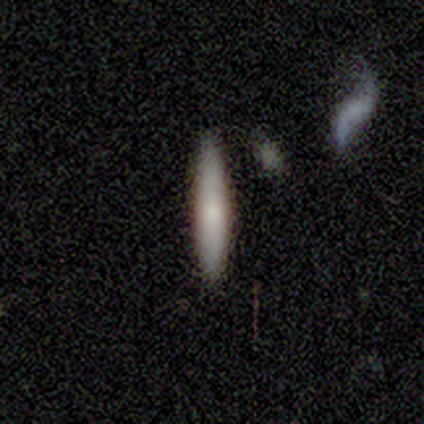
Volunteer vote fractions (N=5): Morphology: type=smooth (100%); roundness=cigar-shaped (100%); merging=none (80%).